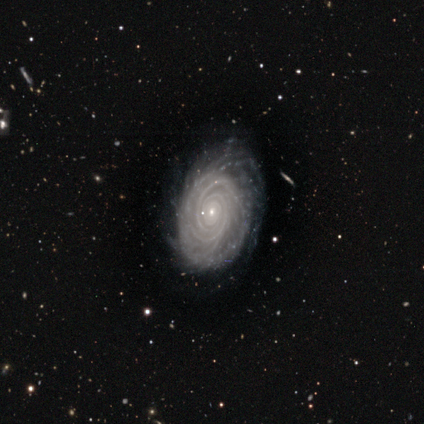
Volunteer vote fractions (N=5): smooth-or-featured: featured or disk: 100% | smooth: 0% | star or artifact: 0%
  disk-edge-on: no: 100% | yes: 0%
    bar: no: 60% | weak: 40% | strong: 0%
    has-spiral-arms: yes: 100% | no: 0%
      spiral-winding: tight: 80% | medium: 20% | loose: 0%
      spiral-arm-count: 2: 40% | 3: 20% | more than 4: 20% | can't tell: 20% | 1: 0% | 4: 0%
    bulge-size: small: 100% | dominant: 0% | large: 0% | moderate: 0% | none: 0%
  merging: none: 80% | major disturbance: 20% | minor disturbance: 0% | merger: 0%